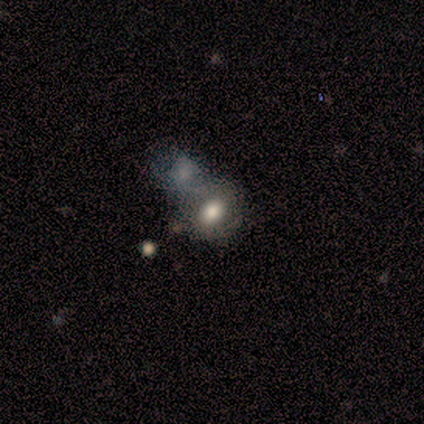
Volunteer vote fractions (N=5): Smooth or featured?
  - smooth: 60% *
  - featured or disk: 40%
  - star or artifact: 0%
How rounded?
  - in between: 67% *
  - round: 33%
  - cigar-shaped: 0%
Merging?
  - none: 60% *
  - merger: 40%
  - minor disturbance: 0%
  - major disturbance: 0%